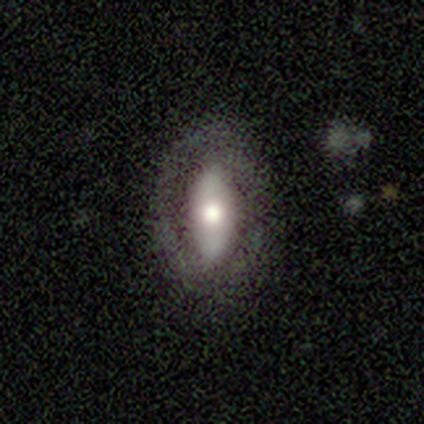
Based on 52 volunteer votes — This appears to be a featured or disk galaxy (56%) with no bar (46%), no spiral arms (67%) and a moderate central bulge (46%). Merging: none (71%).